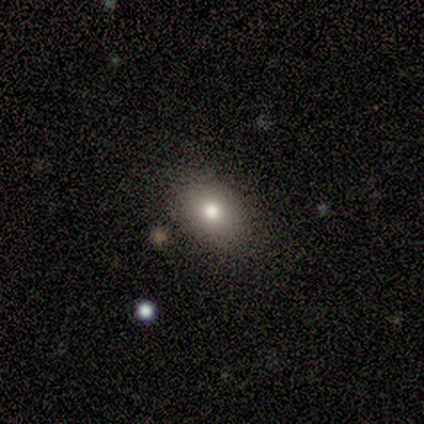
This is clearly a smooth galaxy (80%). How rounded: clearly in between (100%). Merging: marginally none (40%, tied with minor disturbance).